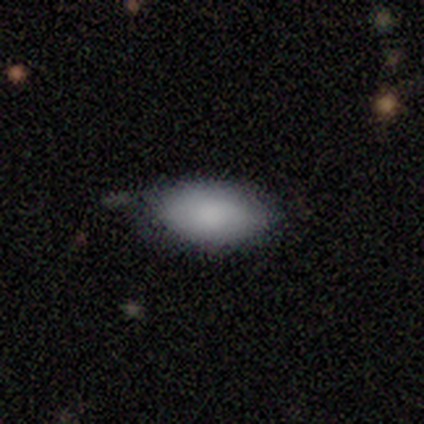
Overall: smooth (100%). How rounded: in between (100%). Merging: none (75%).